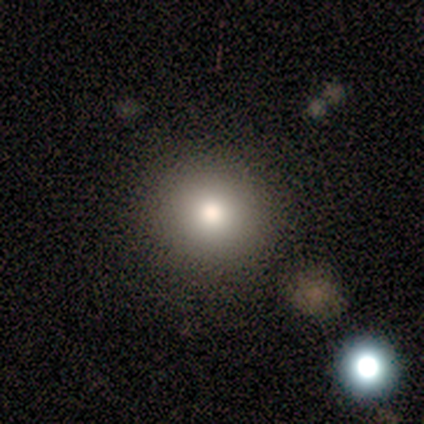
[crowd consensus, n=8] smooth_or_featured: smooth (p=0.88) [alt: featured or disk p=0.12]
how_rounded: round (p=0.86) [alt: in between p=0.14]
merging: none (p=0.75) [alt: minor disturbance p=0.25]